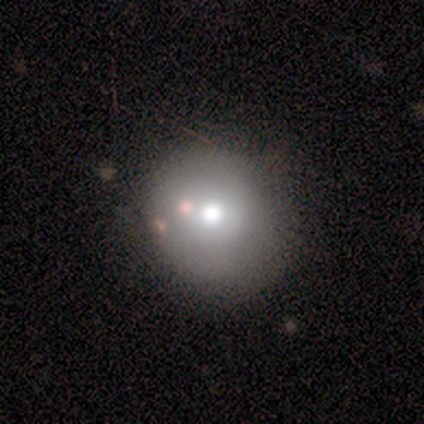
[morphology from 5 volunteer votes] Volunteers were most divided on "merging" (2-way tie): none: 50%, merger: 50%, minor disturbance: 0%, major disturbance: 0%. More confident: how rounded — round (100%); smooth or featured — smooth (80%).